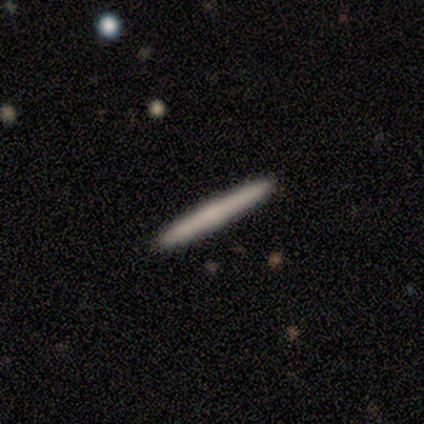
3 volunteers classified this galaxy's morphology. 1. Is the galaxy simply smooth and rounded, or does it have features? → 67% smooth, 33% featured or disk, 0% star or artifact.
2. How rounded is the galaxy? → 100% cigar-shaped, 0% round, 0% in between.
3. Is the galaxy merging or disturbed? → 100% none, 0% minor disturbance, 0% major disturbance, 0% merger.